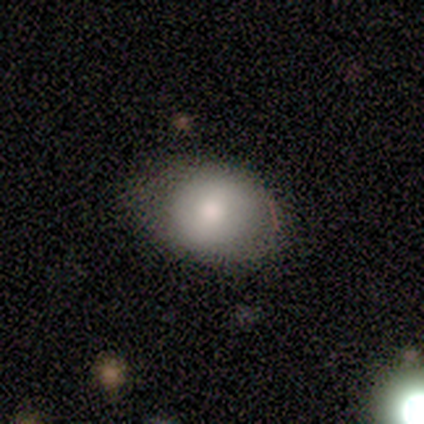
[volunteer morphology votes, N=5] Smooth or featured: smooth — 80% (star or artifact — 20%)
How rounded: in between — 75% (round — 25%)
Merging: none — 75% (minor disturbance — 25%)